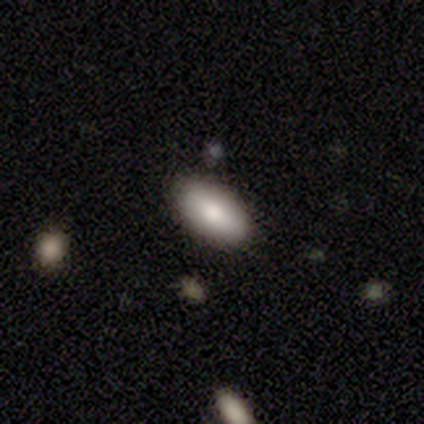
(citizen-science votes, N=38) Smooth or featured: smooth — 74% (featured or disk — 18%)
How rounded: in between — 96% (round — 4%)
Merging: none — 91% (minor disturbance — 3%)